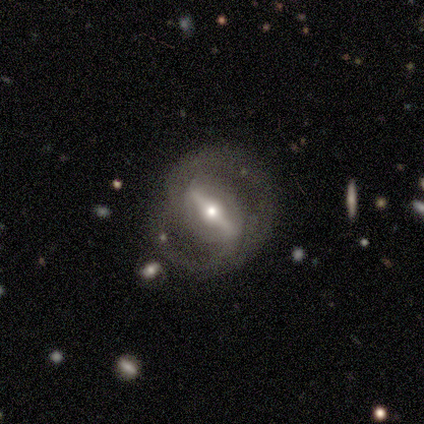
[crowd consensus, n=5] Overall: featured or disk (100%). Edge-on disk: no (60%; yes 40%). Bar: strong (67%; weak 33%). Spiral arms: yes (100%). Spiral arm count: 2 (67%; can't tell 33%). Spiral winding: tight (33%, tied with medium and loose). Bulge size: moderate (67%; small 33%). Merging: none (100%).